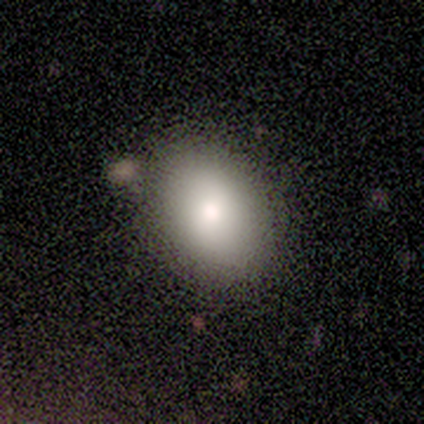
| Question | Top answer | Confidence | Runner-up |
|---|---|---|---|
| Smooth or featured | smooth | 100% | — |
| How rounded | in between | 75% | round (25%) |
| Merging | none | 50% | tied: minor disturbance (50%) |